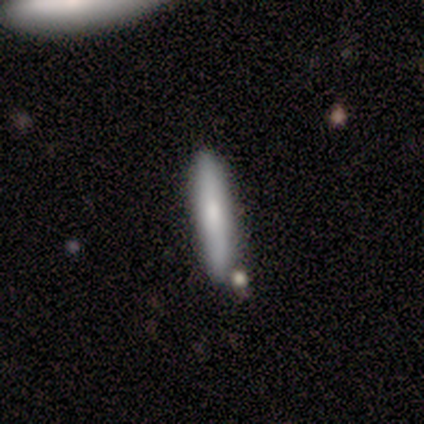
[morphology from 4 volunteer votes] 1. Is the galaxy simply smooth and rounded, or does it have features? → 75% smooth, 25% featured or disk, 0% star or artifact.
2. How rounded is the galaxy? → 100% cigar-shaped, 0% round, 0% in between.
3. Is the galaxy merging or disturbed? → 75% none, 25% merger, 0% minor disturbance, 0% major disturbance.